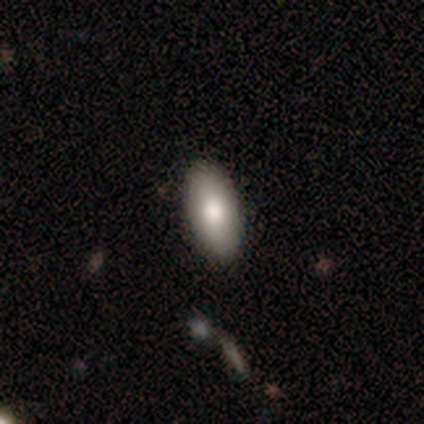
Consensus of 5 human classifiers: This appears to be a smooth galaxy with no disk features (100%) that is in between round and cigar-shaped (80%). Merging: none (100%).